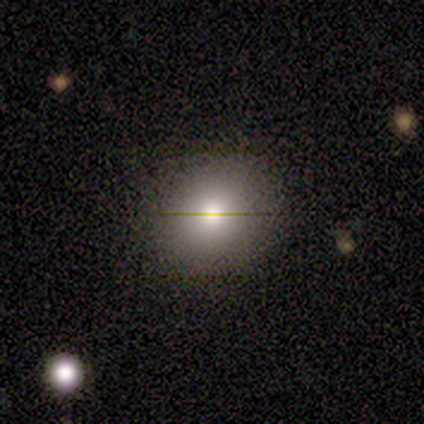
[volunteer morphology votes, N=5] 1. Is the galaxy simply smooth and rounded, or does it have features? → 60% featured or disk, 40% smooth, 0% star or artifact.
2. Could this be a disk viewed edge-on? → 67% no, 33% yes.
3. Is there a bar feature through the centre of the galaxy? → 100% no, 0% strong, 0% weak.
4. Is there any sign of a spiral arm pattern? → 100% no, 0% yes.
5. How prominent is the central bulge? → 100% moderate, 0% dominant, 0% large, 0% small, 0% none.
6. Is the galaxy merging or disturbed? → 100% none, 0% minor disturbance, 0% major disturbance, 0% merger.